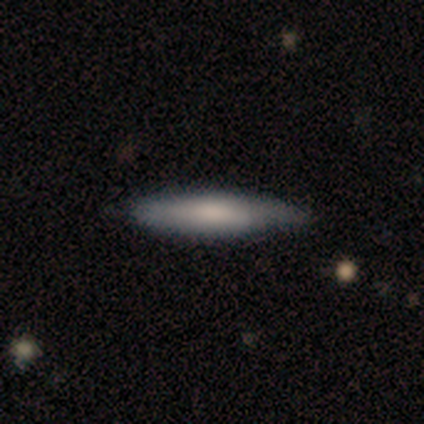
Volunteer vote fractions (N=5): Q: Smooth or featured?
A: smooth (40%); tied with: featured or disk (40%)
Q: How rounded?
A: cigar-shaped (100%)
Q: Merging?
A: none (75%); runner-up: minor disturbance (25%)